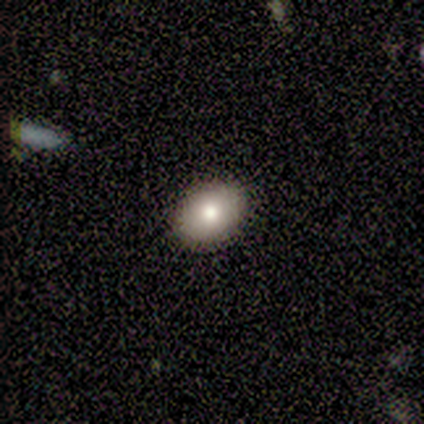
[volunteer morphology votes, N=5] Smooth or featured: smooth — 60% (featured or disk — 20%)
How rounded: in between — 67% (round — 33%)
Merging: none — 100%